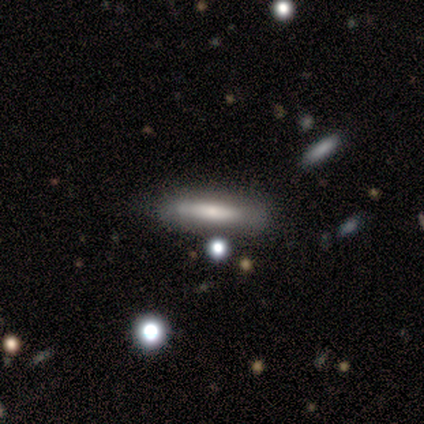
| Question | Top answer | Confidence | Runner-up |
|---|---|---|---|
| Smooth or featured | smooth | 80% | featured or disk (20%) |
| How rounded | cigar-shaped | 100% | — |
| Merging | none | 60% | major disturbance (20%) |